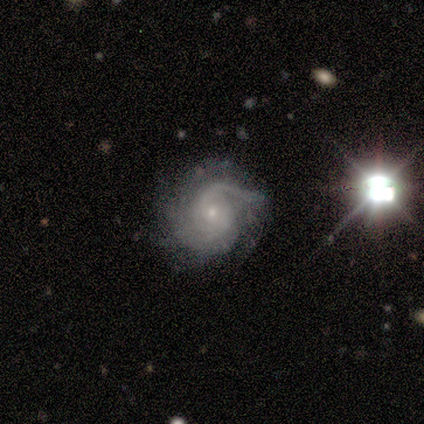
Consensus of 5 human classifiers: Overall: featured or disk (100%). Edge-on disk: no (100%). Bar: no (100%). Spiral arms: yes (100%). Spiral arm count: 3 (40%, tied with can't tell). Spiral winding: medium (100%). Bulge size: small (80%). Merging: none (80%).